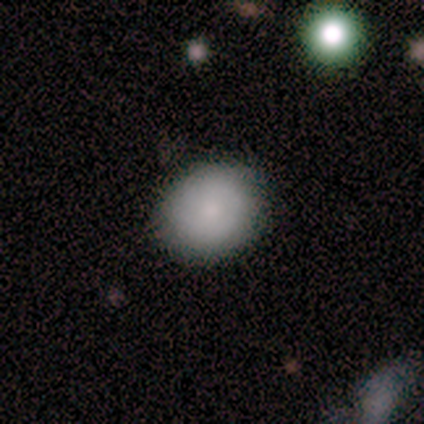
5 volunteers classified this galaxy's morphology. Volunteers were most divided on "how rounded": round: 75%, in between: 25%, cigar-shaped: 0%. More confident: merging — none (100%); smooth or featured — smooth (80%).